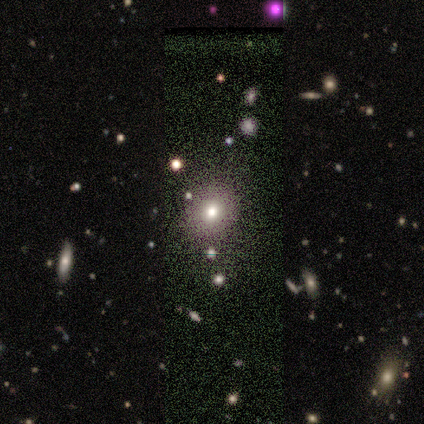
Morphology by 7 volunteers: A smooth galaxy with no disk features (86%) that is round (67%).

Vote fractions:
- Smooth or featured? smooth: 86% / star or artifact: 14% / featured or disk: 0%
- How rounded? round: 67% / in between: 33% / cigar-shaped: 0%
- Merging? none: 50% / major disturbance: 33% / minor disturbance: 17% / merger: 0%